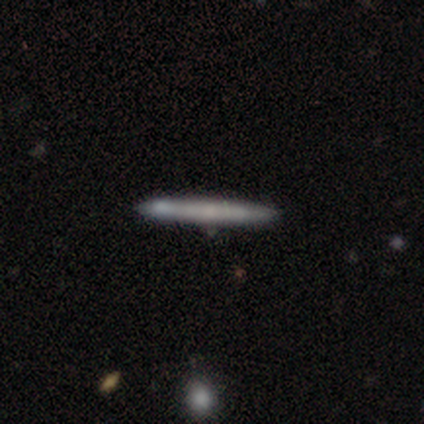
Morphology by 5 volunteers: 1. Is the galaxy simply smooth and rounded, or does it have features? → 80% smooth, 20% star or artifact, 0% featured or disk.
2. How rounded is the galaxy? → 100% cigar-shaped, 0% round, 0% in between.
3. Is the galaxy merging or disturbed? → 50% none, 25% major disturbance, 25% merger, 0% minor disturbance.